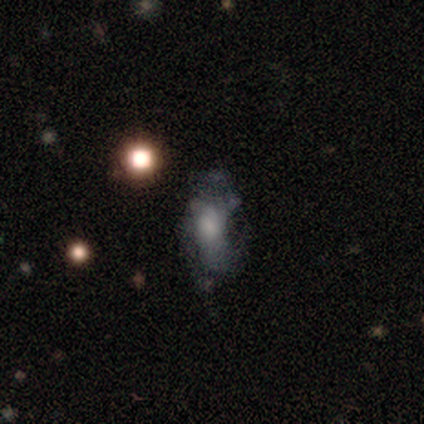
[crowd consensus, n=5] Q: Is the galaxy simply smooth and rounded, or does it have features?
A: smooth — 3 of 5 (60%).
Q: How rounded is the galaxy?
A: in between — 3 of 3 (100%).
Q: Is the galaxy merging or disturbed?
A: none — 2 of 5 (40%, tied with minor disturbance).